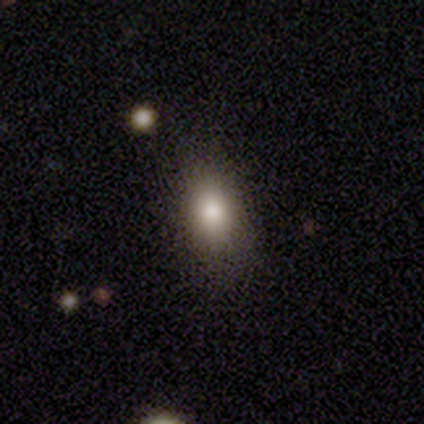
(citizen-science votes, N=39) Smooth or featured? smooth (87%)
How rounded? in between (85%)
Merging? none (86%)